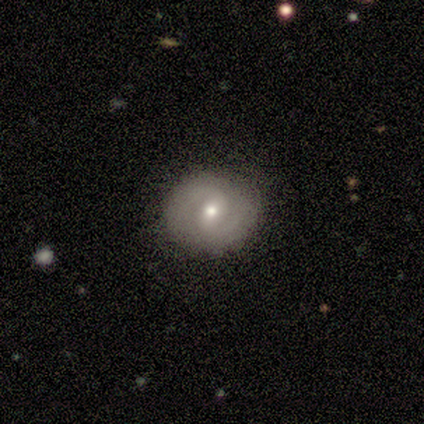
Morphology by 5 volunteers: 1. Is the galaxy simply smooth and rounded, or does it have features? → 100% featured or disk, 0% smooth, 0% star or artifact.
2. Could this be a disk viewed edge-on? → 100% no, 0% yes.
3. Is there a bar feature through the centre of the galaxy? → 60% weak, 40% no, 0% strong.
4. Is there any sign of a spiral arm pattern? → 100% yes, 0% no.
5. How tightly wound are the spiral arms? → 60% medium, 40% tight, 0% loose.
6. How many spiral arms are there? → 100% 2, 0% 1, 0% 3, 0% 4, 0% more than 4, 0% can't tell.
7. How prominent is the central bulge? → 60% moderate, 40% small, 0% dominant, 0% large, 0% none.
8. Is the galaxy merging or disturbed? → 80% none, 20% minor disturbance, 0% major disturbance, 0% merger.